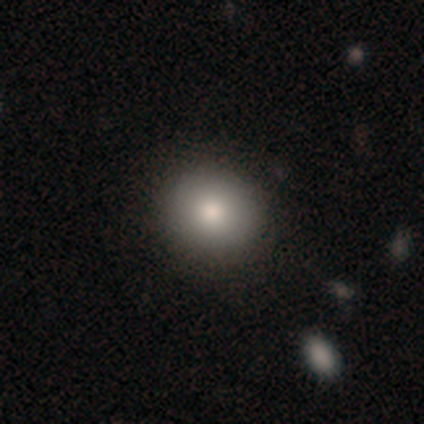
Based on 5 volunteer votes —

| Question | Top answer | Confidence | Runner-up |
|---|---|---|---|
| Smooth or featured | smooth | 80% | star or artifact (20%) |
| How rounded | round | 100% | — |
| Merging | none | 100% | — |